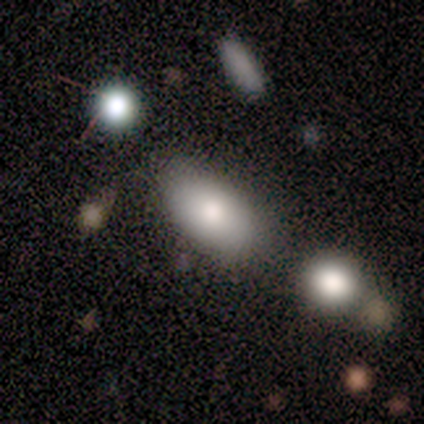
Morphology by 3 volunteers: This appears to be a smooth galaxy with no disk features (100%) that is in between round and cigar-shaped (100%). Merging: none (67%).